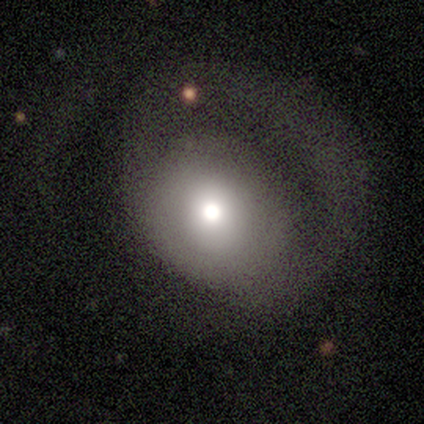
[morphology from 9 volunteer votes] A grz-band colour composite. It shows a smooth galaxy with no disk features (56%) that is round (80%). Merging: major disturbance (62%).